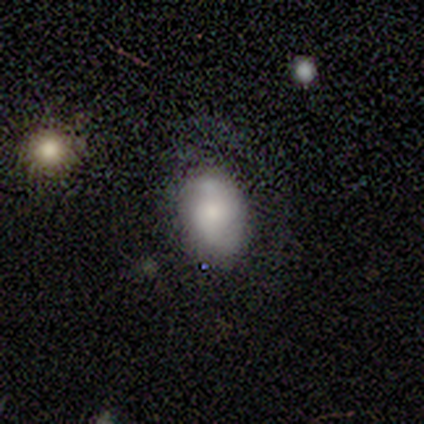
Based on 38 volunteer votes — A smooth galaxy with no disk features (53%) that is in between round and cigar-shaped (95%). Merging: none (69%).